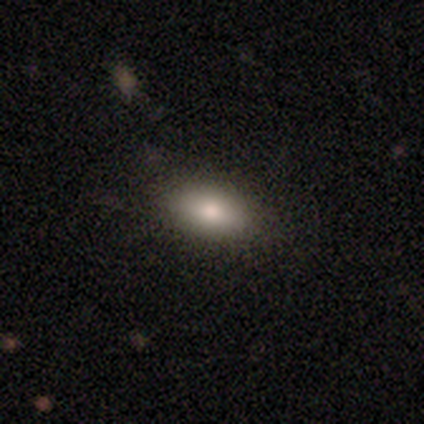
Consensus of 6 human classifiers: Smooth or featured? 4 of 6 (67%) said smooth. How rounded? 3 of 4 (75%) said in between. Merging? 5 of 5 (100%) said none.